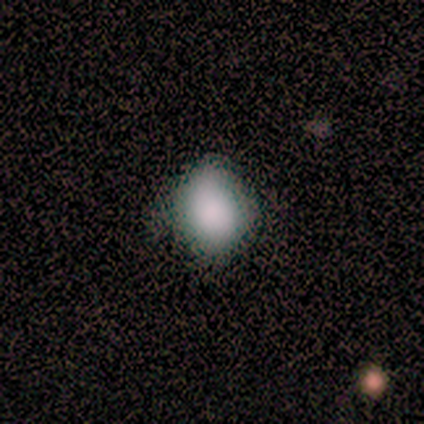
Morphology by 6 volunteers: Volunteers were most divided on "how rounded": in between: 60%, round: 40%, cigar-shaped: 0%. More confident: smooth or featured — smooth (83%); merging — none (67%).